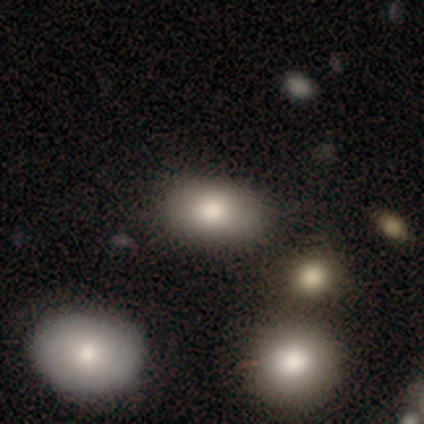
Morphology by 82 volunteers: smooth_or_featured: smooth (p=0.82) [alt: star or artifact p=0.12]
how_rounded: in between (p=0.88) [alt: round p=0.10]
merging: none (p=0.85) [alt: minor disturbance p=0.07]